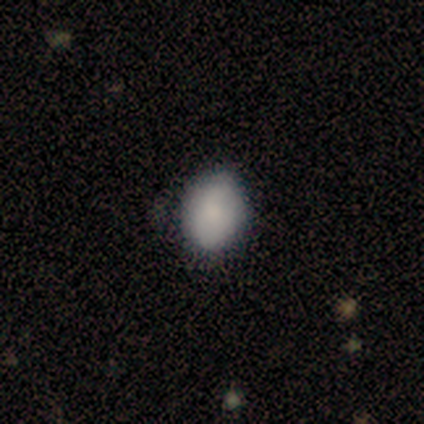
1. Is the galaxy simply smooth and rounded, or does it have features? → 80% smooth, 20% featured or disk, 0% star or artifact.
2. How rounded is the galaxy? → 75% in between, 25% round, 0% cigar-shaped.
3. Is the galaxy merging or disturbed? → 100% none, 0% minor disturbance, 0% major disturbance, 0% merger.